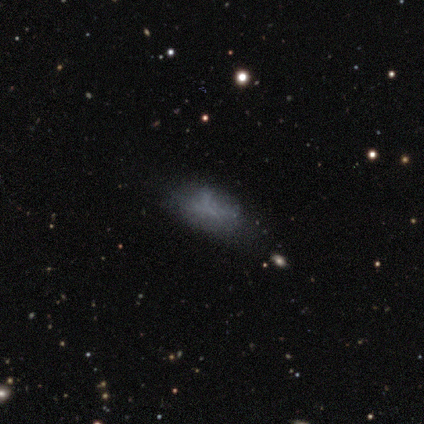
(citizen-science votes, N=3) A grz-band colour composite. It shows a smooth galaxy with no disk features (67%) that is in between round and cigar-shaped (100%). Merging: major disturbance (67%).